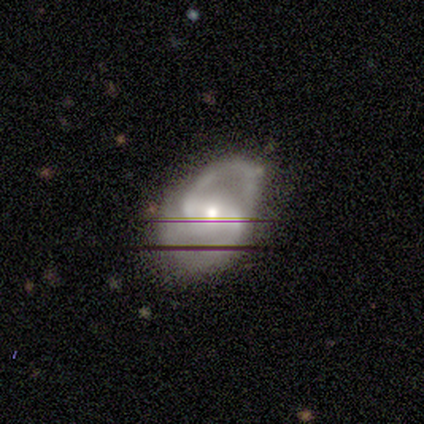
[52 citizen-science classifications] Smooth or featured? 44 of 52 (85%) said featured or disk. Edge-on disk? 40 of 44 (91%) said no. Bar? 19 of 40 (48%) said weak. Spiral arms? 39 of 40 (98%) said yes. Spiral winding? 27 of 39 (69%) said medium. Spiral arm count? 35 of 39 (90%) said 2. Bulge size? 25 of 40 (62%) said moderate. Merging? 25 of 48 (52%) said none.